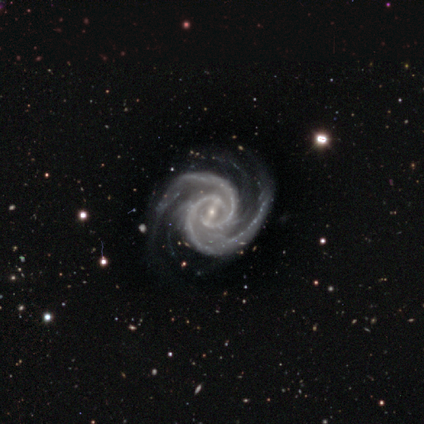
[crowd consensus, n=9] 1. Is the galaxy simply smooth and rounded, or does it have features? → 100% featured or disk, 0% smooth, 0% star or artifact.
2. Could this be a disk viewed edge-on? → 100% no, 0% yes.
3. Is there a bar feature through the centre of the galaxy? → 56% weak, 33% strong, 11% no.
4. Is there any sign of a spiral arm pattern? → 100% yes, 0% no.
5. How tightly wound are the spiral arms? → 67% tight, 22% medium, 11% loose.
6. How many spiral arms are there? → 78% 2, 11% 3, 11% 4, 0% 1, 0% more than 4, 0% can't tell.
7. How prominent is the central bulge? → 100% small, 0% dominant, 0% large, 0% moderate, 0% none.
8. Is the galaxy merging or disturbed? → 100% none, 0% minor disturbance, 0% major disturbance, 0% merger.